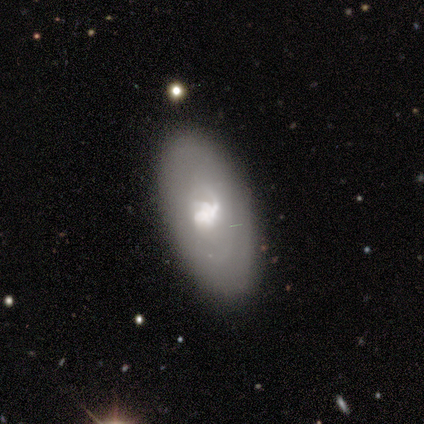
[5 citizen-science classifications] smooth_or_featured: featured or disk (p=0.80) [alt: star or artifact p=0.20]
disk_edge_on: no (p=1.00)
bar: no (p=0.75) [alt: strong p=0.25]
has_spiral_arms: yes (p=0.50) [tied with: no p=0.50]
spiral_winding: medium (p=1.00)
spiral_arm_count: 1 (p=0.50) [tied with: can't tell p=0.50]
bulge_size: moderate (p=0.75) [alt: large p=0.25]
merging: none (p=0.75) [alt: minor disturbance p=0.25]